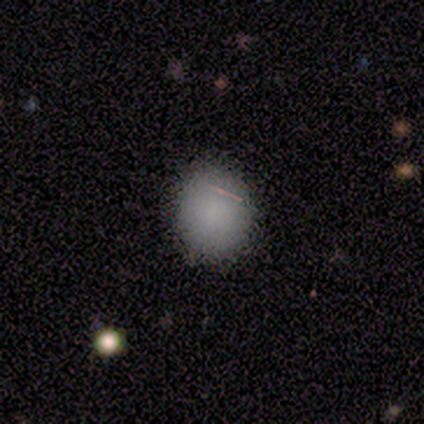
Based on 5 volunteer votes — Smooth or featured?
  - smooth: 100% *
  - featured or disk: 0%
  - star or artifact: 0%
How rounded?
  - round: 80% *
  - in between: 20%
  - cigar-shaped: 0%
Merging?
  - none: 100% *
  - minor disturbance: 0%
  - major disturbance: 0%
  - merger: 0%